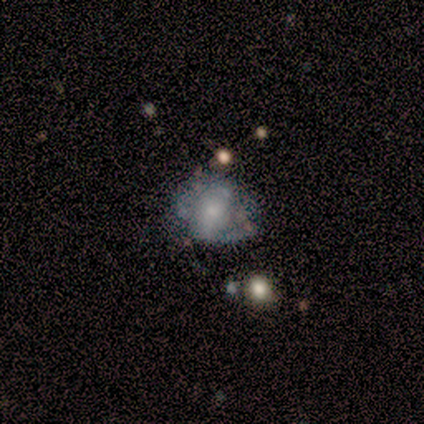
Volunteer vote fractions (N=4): This is possibly a star or artifact rather than a galaxy (50%).